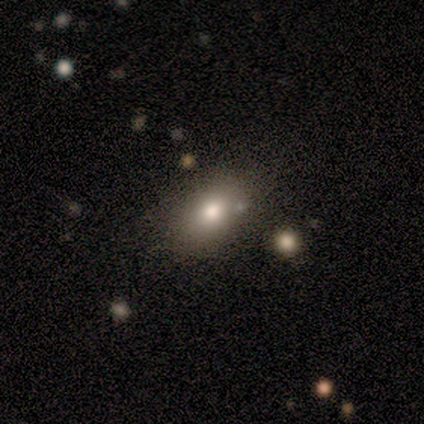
Smooth or featured? smooth (43%)
How rounded? in between (100%)
Merging? none (80%)